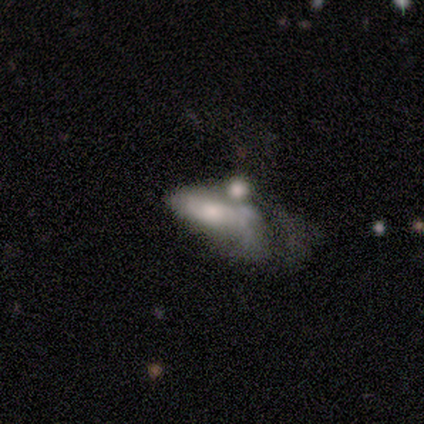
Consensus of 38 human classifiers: Q: Smooth or featured?
A: featured or disk (50%); runner-up: smooth (45%)
Q: Edge-on disk?
A: no (79%); runner-up: yes (21%)
Q: Bar?
A: no (80%); runner-up: weak (20%)
Q: Spiral arms?
A: no (67%); runner-up: yes (33%)
Q: Bulge size?
A: moderate (40%); runner-up: small (27%)
Q: Merging?
A: major disturbance (36%); tied with: merger (36%)